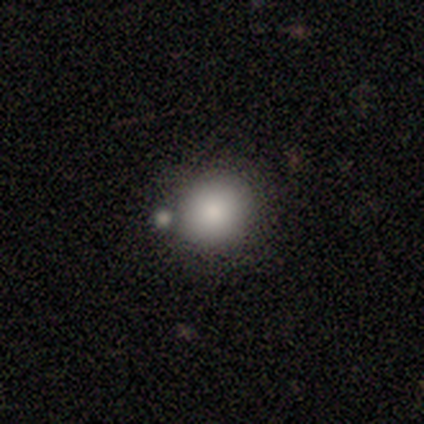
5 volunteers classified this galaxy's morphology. smooth_or_featured: smooth (p=1.00)
how_rounded: round (p=1.00)
merging: none (p=0.80) [alt: merger p=0.20]